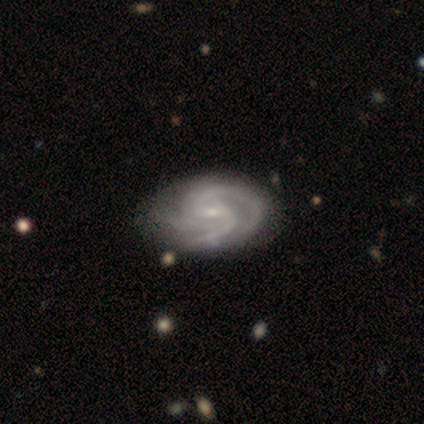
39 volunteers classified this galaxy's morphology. A featured or disk galaxy (90%) with a weak bar (57%), 3 (54%) tight (54%) spiral arms (100%) and a small central bulge (89%). Merging: none (68%).